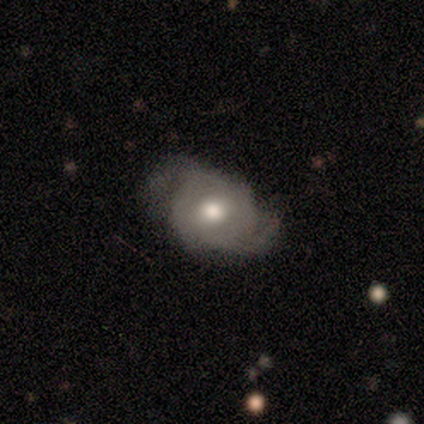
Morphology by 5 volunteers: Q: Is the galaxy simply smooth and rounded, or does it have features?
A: featured or disk — 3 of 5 (60%).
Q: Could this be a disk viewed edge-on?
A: no — 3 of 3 (100%).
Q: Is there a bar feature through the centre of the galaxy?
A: no — 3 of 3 (100%).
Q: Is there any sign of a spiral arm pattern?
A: yes — 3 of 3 (100%).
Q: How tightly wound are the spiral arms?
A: loose — 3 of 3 (100%).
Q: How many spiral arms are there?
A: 2 — 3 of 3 (100%).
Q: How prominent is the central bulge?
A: moderate — 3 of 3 (100%).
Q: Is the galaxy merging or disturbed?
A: major disturbance — 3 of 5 (60%).